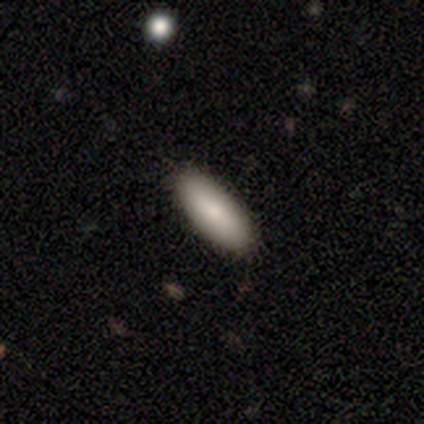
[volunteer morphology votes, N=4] smooth_or_featured: smooth (p=0.75) [alt: featured or disk p=0.25]
how_rounded: in between (p=1.00)
merging: none (p=0.75) [alt: minor disturbance p=0.25]